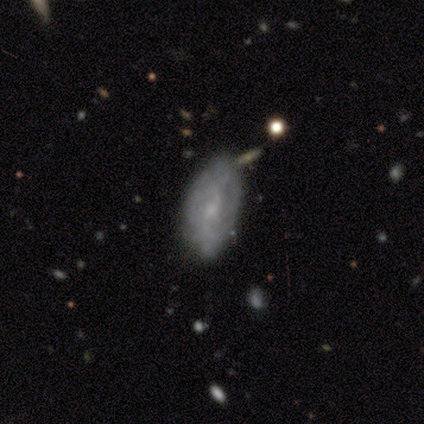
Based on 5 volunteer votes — Smooth or featured? smooth (60%)
How rounded? in between (100%)
Merging? none (60%)